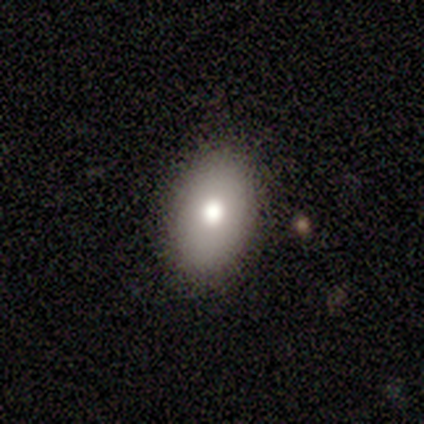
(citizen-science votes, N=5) Morphology: type=smooth (80%); roundness=in between (100%); merging=none (100%).